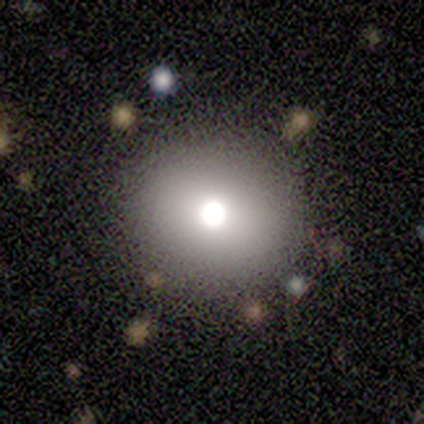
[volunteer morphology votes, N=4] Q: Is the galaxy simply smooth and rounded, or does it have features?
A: smooth — 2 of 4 (50%, tied with star or artifact).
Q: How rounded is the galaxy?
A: round — 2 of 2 (100%).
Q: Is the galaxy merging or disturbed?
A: none — 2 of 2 (100%).